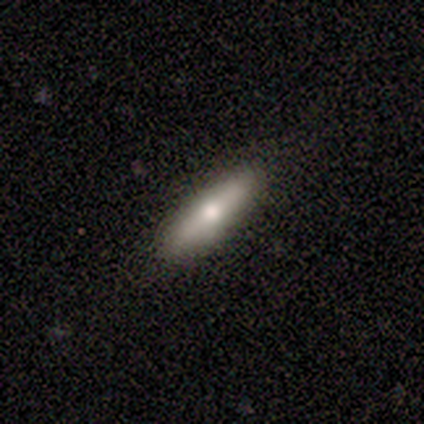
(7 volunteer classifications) smooth-or-featured: featured or disk: 71% | smooth: 29% | star or artifact: 0%
  disk-edge-on: yes: 80% | no: 20%
    edge-on-bulge: rounded: 100% | boxy: 0% | none: 0%
  merging: none: 100% | minor disturbance: 0% | major disturbance: 0% | merger: 0%